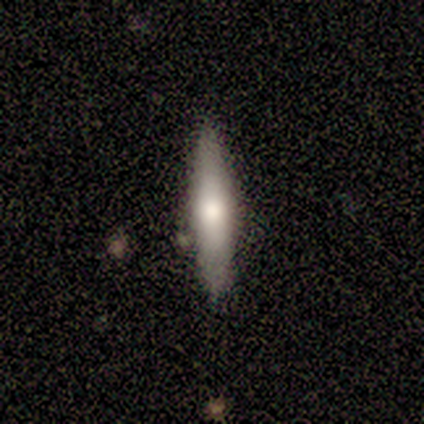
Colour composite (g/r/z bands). It shows a featured or disk galaxy (60%) viewed edge-on (100%) with a rounded central bulge (100%). Merging: none (60%).